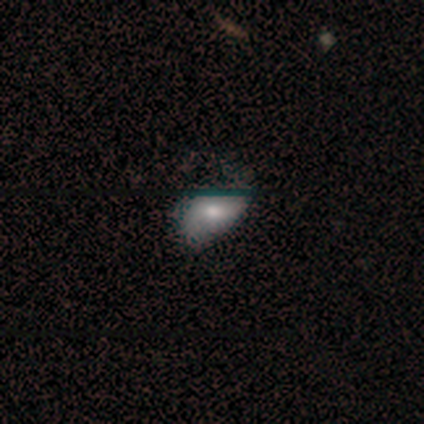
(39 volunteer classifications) Q: Smooth or featured?
A: smooth (51%); runner-up: featured or disk (44%)
Q: How rounded?
A: in between (85%); runner-up: round (10%)
Q: Merging?
A: none (46%); runner-up: minor disturbance (38%)